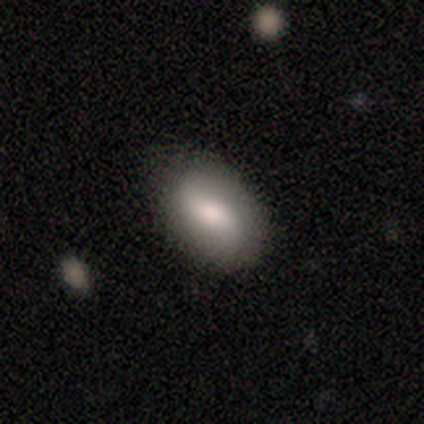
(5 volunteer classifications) smooth-or-featured: smooth: 80% | star or artifact: 20% | featured or disk: 0%
  how-rounded: in between: 75% | round: 25% | cigar-shaped: 0%
  merging: none: 75% | minor disturbance: 25% | major disturbance: 0% | merger: 0%